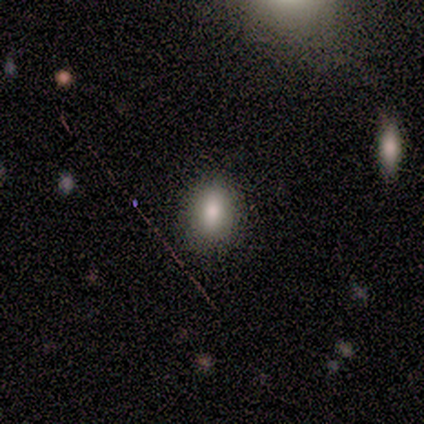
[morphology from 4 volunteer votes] smooth-or-featured: smooth: 75% | featured or disk: 25% | star or artifact: 0%
  how-rounded: in between: 67% | round: 33% | cigar-shaped: 0%
  merging: none: 100% | minor disturbance: 0% | major disturbance: 0% | merger: 0%